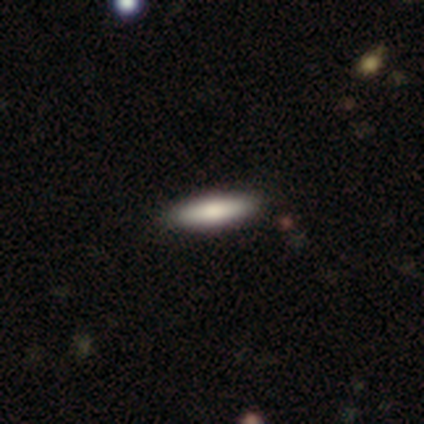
Volunteers were most divided on "smooth or featured" (2-way tie): smooth: 50%, featured or disk: 50%, star or artifact: 0%. More confident: how rounded — cigar-shaped (100%); merging — none (100%).